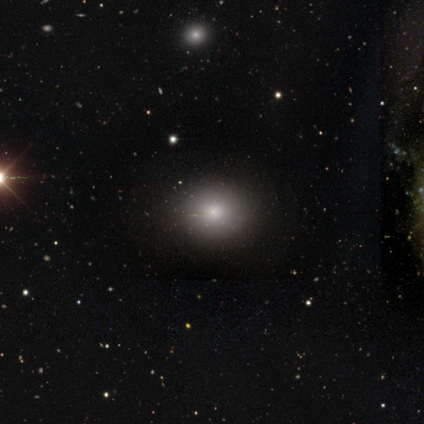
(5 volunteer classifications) Smooth or featured? smooth (80%)
How rounded? in between (100%)
Merging? none (100%)